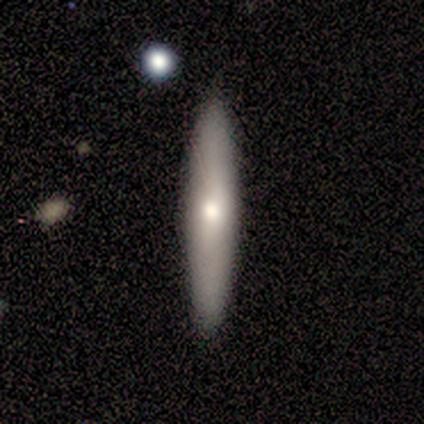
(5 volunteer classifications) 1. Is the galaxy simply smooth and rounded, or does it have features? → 60% featured or disk, 40% smooth, 0% star or artifact.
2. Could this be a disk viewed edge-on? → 67% yes, 33% no.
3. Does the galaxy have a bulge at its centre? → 100% rounded, 0% boxy, 0% none.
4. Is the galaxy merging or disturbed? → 100% none, 0% minor disturbance, 0% major disturbance, 0% merger.